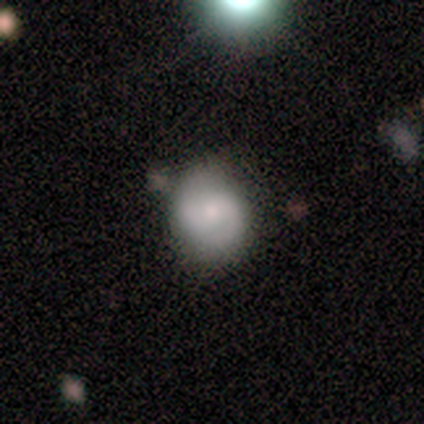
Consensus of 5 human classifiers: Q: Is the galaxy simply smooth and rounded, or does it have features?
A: featured or disk — 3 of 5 (60%).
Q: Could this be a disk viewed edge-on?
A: no — 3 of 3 (100%).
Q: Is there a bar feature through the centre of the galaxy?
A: no — 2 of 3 (67%).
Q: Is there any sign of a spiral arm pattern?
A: yes — 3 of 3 (100%).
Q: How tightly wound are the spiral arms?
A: tight — 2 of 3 (67%).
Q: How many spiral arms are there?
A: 2 — 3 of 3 (100%).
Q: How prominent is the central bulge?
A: moderate — 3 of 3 (100%).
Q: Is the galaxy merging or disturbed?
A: none — 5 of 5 (100%).